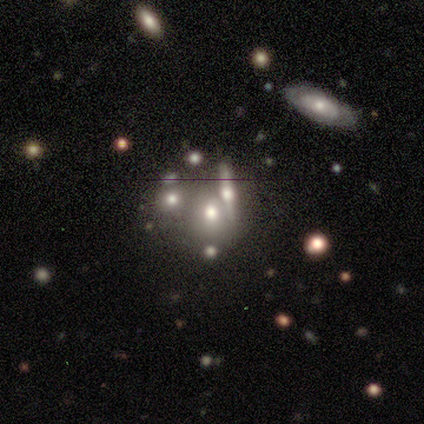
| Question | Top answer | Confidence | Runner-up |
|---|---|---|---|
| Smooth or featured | smooth | 56% | featured or disk (28%) |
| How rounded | round | 56% | in between (38%) |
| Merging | none | 42% | tied: merger (42%) |